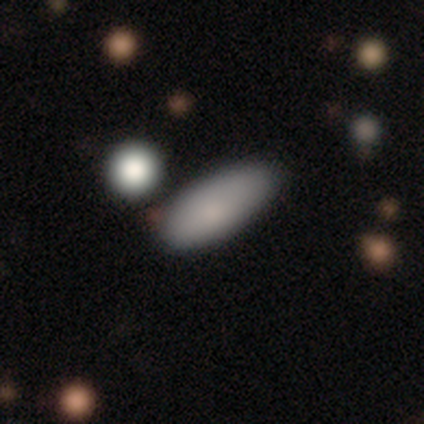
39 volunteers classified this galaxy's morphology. Volunteers were most divided on "how rounded": in between: 75%, cigar-shaped: 25%, round: 0%. More confident: smooth or featured — smooth (92%); merging — none (74%).